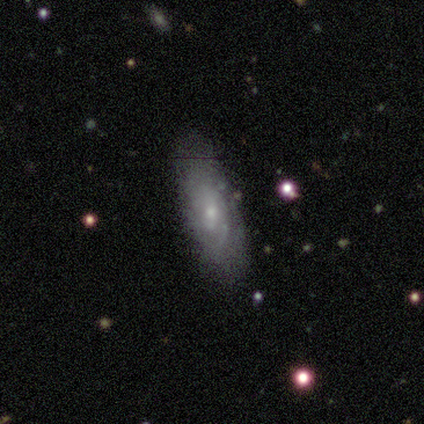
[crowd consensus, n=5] A smooth galaxy with no disk features (100%) that is cigar-shaped (80%).

Vote fractions:
- Smooth or featured? smooth: 100% / featured or disk: 0% / star or artifact: 0%
- How rounded? cigar-shaped: 80% / round: 20% / in between: 0%
- Merging? minor disturbance: 60% / none: 40% / major disturbance: 0% / merger: 0%